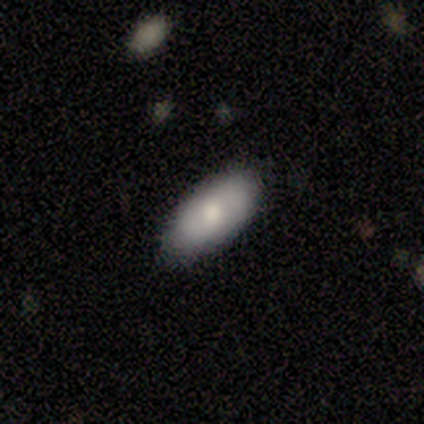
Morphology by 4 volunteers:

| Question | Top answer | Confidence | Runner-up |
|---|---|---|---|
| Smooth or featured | smooth | 50% | tied: featured or disk (50%) |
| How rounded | in between | 50% | tied: cigar-shaped (50%) |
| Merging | none | 100% | — |